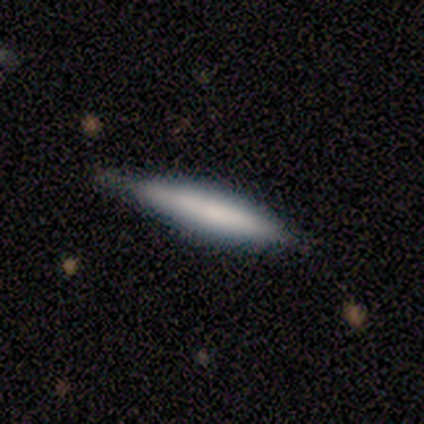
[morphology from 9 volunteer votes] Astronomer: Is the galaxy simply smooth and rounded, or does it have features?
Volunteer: featured or disk — 67%.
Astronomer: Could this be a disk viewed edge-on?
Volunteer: yes — 83%.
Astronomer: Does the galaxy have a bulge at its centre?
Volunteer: none — 60% (runner-up: rounded, 40%).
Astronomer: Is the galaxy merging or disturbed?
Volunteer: minor disturbance — 44% (runner-up: none, 33%).